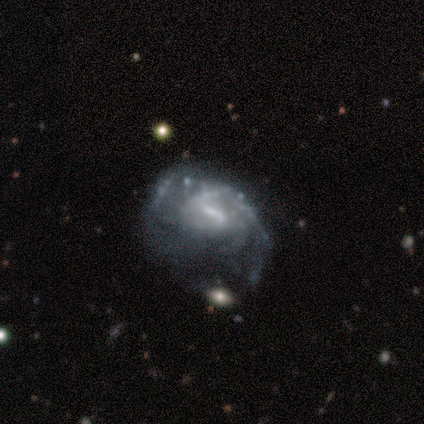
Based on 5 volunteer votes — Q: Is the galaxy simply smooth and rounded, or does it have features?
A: featured or disk — 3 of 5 (60%).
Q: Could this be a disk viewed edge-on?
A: no — 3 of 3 (100%).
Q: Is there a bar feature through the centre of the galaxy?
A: strong — 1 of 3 (33%, tied with weak and no).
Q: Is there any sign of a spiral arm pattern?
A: yes — 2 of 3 (67%).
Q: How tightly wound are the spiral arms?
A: medium — 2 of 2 (100%).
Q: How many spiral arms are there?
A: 2 — 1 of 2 (50%, tied with can't tell).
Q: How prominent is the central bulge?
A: large — 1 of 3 (33%, tied with moderate and small).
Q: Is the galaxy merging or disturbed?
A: minor disturbance — 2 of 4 (50%).